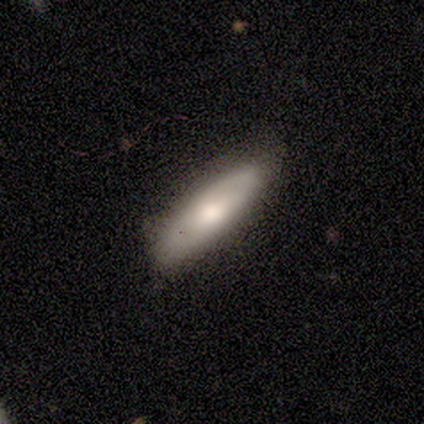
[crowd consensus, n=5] Smooth or featured?
  - smooth: 60% *
  - featured or disk: 40%
  - star or artifact: 0%
How rounded?
  - in between: 67% *
  - cigar-shaped: 33%
  - round: 0%
Merging?
  - none: 60% *
  - minor disturbance: 40%
  - major disturbance: 0%
  - merger: 0%